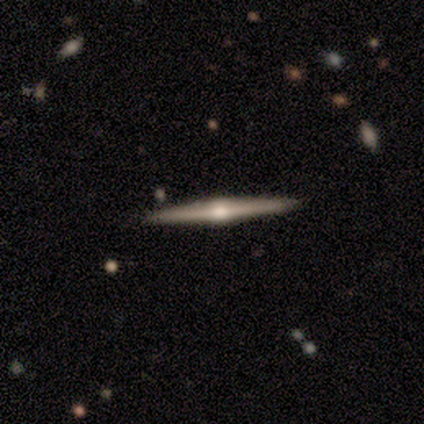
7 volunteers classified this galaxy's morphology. A featured or disk galaxy (86%) viewed edge-on (100%) with a rounded central bulge (100%).

Vote fractions:
- Smooth or featured? featured or disk: 86% / star or artifact: 14% / smooth: 0%
- Edge-on disk? yes: 100% / no: 0%
- Edge-on bulge? rounded: 100% / boxy: 0% / none: 0%
- Merging? none: 83% / minor disturbance: 17% / major disturbance: 0% / merger: 0%